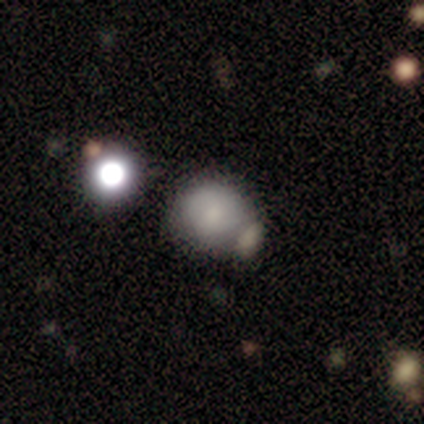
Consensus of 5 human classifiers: Q: Smooth or featured?
A: smooth (100%)
Q: How rounded?
A: round (80%); runner-up: in between (20%)
Q: Merging?
A: none (60%); runner-up: minor disturbance (20%)